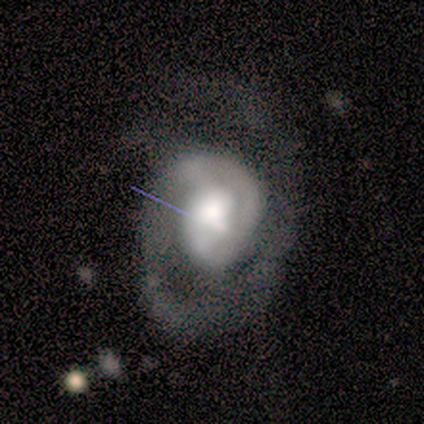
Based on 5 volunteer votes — featured or disk 100%, smooth 0%, star or artifact 0%. Down the decision tree: edge-on disk — no (100%); bar — weak (80%); spiral arms — yes (80%); spiral arm count — can't tell (50%); spiral winding — medium (75%); bulge size — large (60%); merging — none (60%).